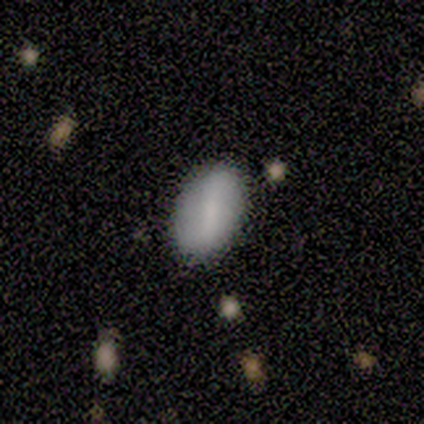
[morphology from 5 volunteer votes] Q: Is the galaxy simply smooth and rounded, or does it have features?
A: smooth — 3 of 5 (60%).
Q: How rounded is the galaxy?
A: in between — 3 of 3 (100%).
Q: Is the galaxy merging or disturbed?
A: none — 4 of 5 (80%).